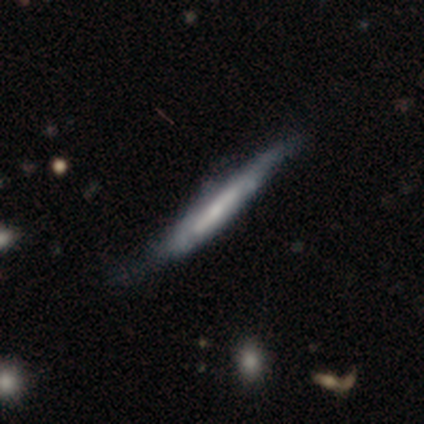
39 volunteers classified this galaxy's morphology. Q: Smooth or featured?
A: featured or disk (59%); runner-up: smooth (36%)
Q: Edge-on disk?
A: yes (83%); runner-up: no (17%)
Q: Edge-on bulge?
A: none (58%); runner-up: rounded (26%)
Q: Merging?
A: none (57%); runner-up: minor disturbance (22%)